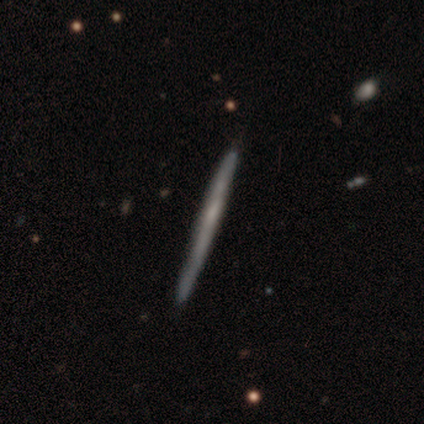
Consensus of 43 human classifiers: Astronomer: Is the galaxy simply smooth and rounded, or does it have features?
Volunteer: featured or disk — 53% (runner-up: smooth, 44%).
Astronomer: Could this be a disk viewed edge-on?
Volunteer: yes — 96%.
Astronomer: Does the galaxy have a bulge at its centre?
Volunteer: none — 100%.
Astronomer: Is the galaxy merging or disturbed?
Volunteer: none — 76%.